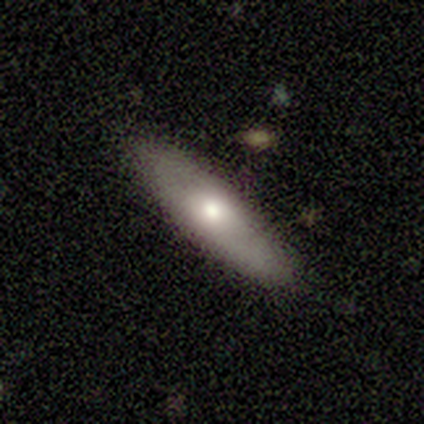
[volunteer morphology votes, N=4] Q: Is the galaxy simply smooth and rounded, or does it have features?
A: smooth — 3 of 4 (75%).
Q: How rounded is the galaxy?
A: in between — 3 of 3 (100%).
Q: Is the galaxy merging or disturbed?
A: none — 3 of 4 (75%).